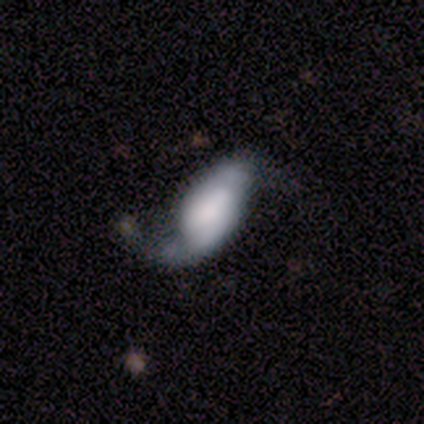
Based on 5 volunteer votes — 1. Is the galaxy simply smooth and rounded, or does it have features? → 60% featured or disk, 40% smooth, 0% star or artifact.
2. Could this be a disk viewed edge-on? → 100% no, 0% yes.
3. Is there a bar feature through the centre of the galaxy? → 67% no, 33% weak, 0% strong.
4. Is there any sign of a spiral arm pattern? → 67% yes, 33% no.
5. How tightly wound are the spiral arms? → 50% medium (tied), 50% loose (tied), 0% tight.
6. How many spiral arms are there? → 100% 2, 0% 1, 0% 3, 0% 4, 0% more than 4, 0% can't tell.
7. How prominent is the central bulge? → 67% none, 33% large, 0% dominant, 0% moderate, 0% small.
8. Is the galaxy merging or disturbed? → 60% minor disturbance, 20% none, 20% major disturbance, 0% merger.